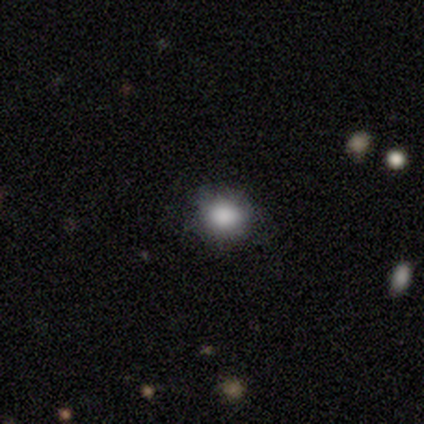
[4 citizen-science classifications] Smooth or featured? smooth (75%)
How rounded? round (100%)
Merging? minor disturbance (67%)